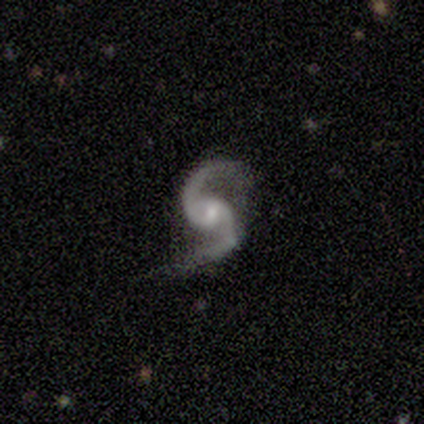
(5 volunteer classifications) Overall: featured or disk (100%). Edge-on disk: no (100%). Bar: weak (60%; no 40%). Spiral arms: yes (100%). Spiral arm count: 2 (100%). Spiral winding: loose (60%; medium 40%). Bulge size: small (60%; moderate 40%). Merging: none (80%).